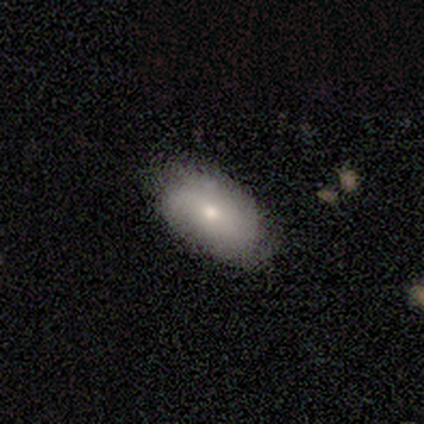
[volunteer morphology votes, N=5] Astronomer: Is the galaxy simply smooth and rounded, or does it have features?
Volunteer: smooth — 60% (runner-up: featured or disk, 40%).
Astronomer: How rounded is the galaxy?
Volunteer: in between — 100%.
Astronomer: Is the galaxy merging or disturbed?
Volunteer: none — 80%.